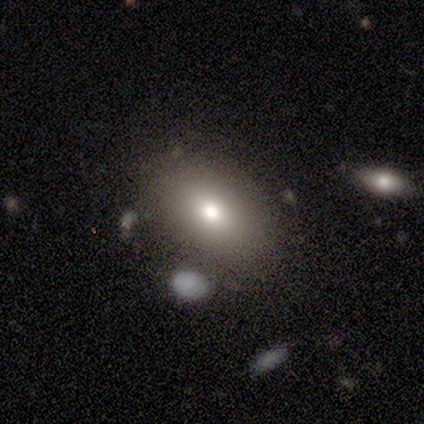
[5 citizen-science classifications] Smooth or featured?
  - smooth: 80% *
  - featured or disk: 20%
  - star or artifact: 0%
How rounded?
  - in between: 75% *
  - cigar-shaped: 25%
  - round: 0%
Merging?
  - none: 60% *
  - minor disturbance: 40%
  - major disturbance: 0%
  - merger: 0%